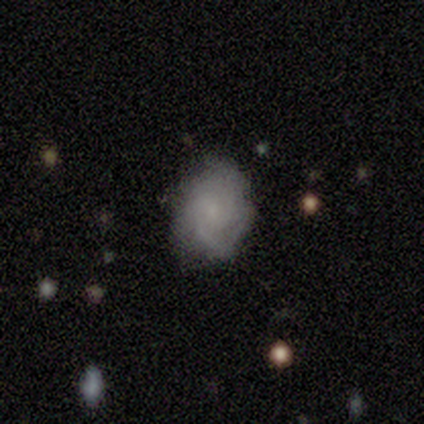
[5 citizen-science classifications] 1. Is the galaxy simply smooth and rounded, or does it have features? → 80% featured or disk, 20% smooth, 0% star or artifact.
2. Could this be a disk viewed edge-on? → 100% no, 0% yes.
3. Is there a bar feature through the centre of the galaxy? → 100% no, 0% strong, 0% weak.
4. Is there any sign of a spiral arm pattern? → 75% yes, 25% no.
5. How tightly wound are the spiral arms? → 67% tight, 33% medium, 0% loose.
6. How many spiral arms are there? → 67% can't tell, 33% 3, 0% 1, 0% 2, 0% 4, 0% more than 4.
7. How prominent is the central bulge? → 50% small, 25% moderate, 25% none, 0% dominant, 0% large.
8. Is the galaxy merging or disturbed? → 40% none (tied), 40% minor disturbance (tied), 20% major disturbance, 0% merger.